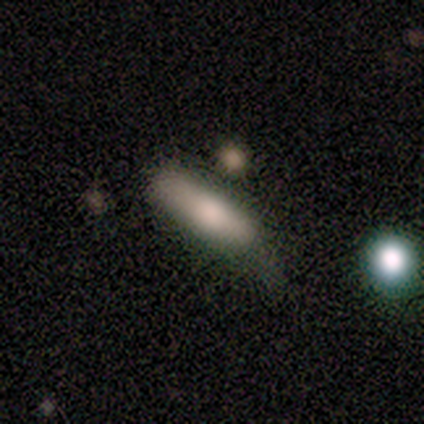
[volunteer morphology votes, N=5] This is clearly a smooth galaxy (100%). How rounded: clearly in between (100%). Merging: marginally none (40%, tied with minor disturbance).